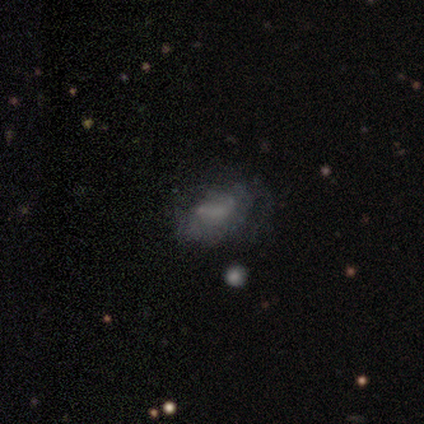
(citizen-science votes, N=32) smooth 47%, featured or disk 41%, star or artifact 12%. Down the decision tree: how rounded — in between (93%); merging — none (43%, tied with major disturbance).